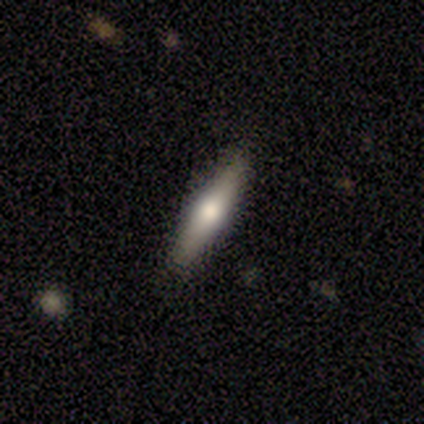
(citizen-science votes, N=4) Morphology: type=featured or disk (50%, tied with star or artifact); edge-on=yes (100%); edge-on bulge=rounded (100%); merging=none (100%).